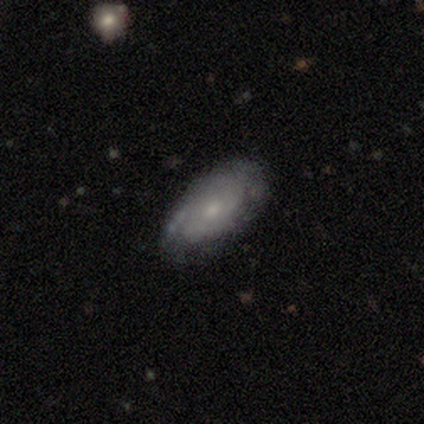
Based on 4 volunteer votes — Smooth or featured? smooth (50%, tied with featured or disk)
How rounded? in between (100%)
Merging? none (100%)